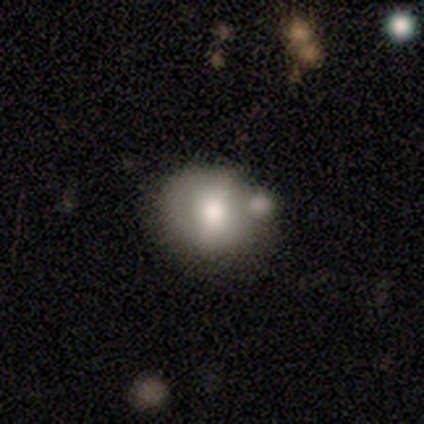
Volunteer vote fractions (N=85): This is likely a smooth galaxy (73%). How rounded: likely round (76%). Merging: possibly none (48%).